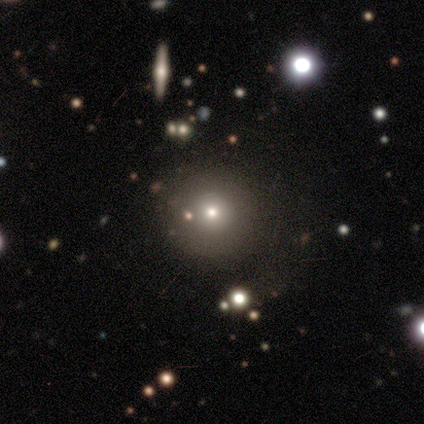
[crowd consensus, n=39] Volunteers were most divided on "smooth or featured": smooth: 72%, star or artifact: 18%, featured or disk: 10%. More confident: how rounded — round (93%); merging — none (75%).